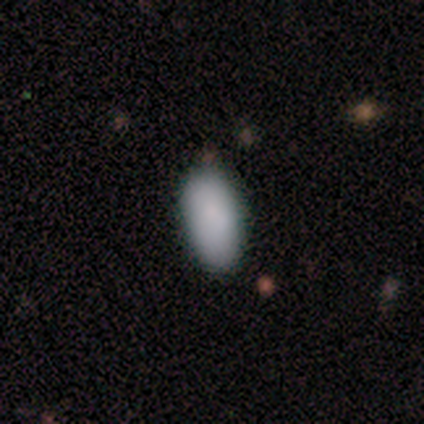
Morphology: type=smooth (100%); roundness=in between (100%); merging=none (100%).